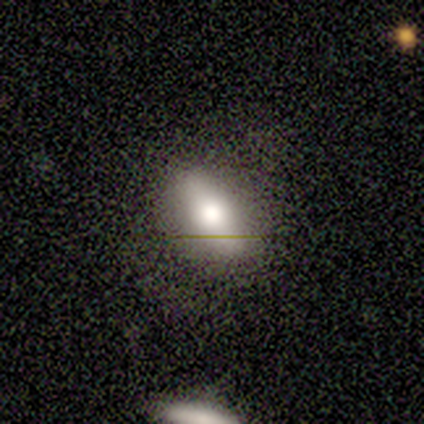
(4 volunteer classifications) Overall: smooth (50%; featured or disk 25%). How rounded: in between (100%). Merging: minor disturbance (67%; major disturbance 33%).